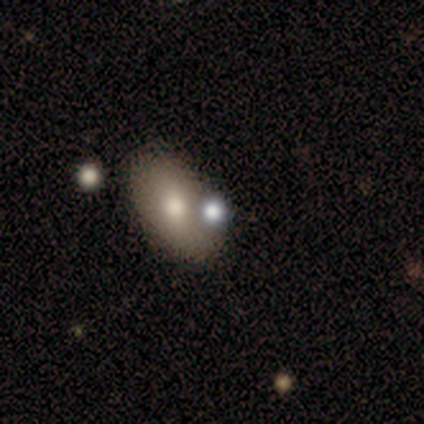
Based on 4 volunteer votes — Overall: smooth (100%). How rounded: in between (75%). Merging: none (50%; major disturbance 25%).